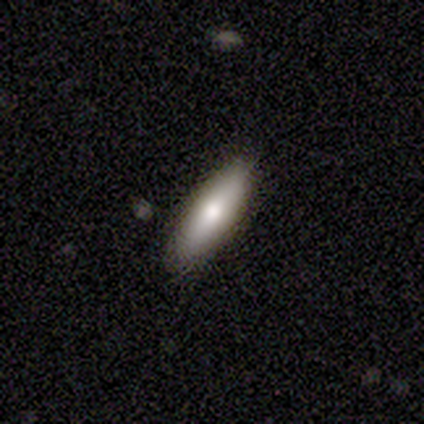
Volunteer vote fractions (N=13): Volunteers were most divided on "how rounded": in between: 80%, cigar-shaped: 20%, round: 0%. More confident: merging — none (92%); smooth or featured — smooth (77%).